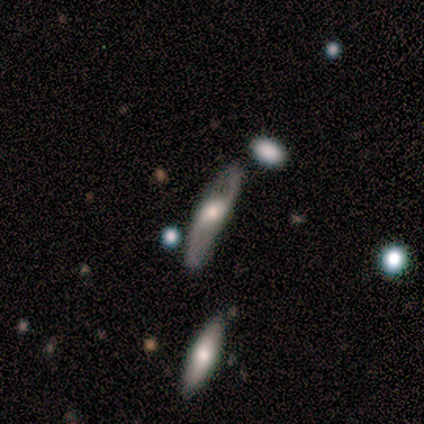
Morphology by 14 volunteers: Volunteers were most divided on "merging": minor disturbance: 42%, none: 25%, major disturbance: 17%, merger: 17%. More confident: spiral arm count — 2 (100%); bar — no (80%); spiral arms — yes (80%); spiral winding — loose (75%); edge-on disk — no (62%); bulge size — large (60%); smooth or featured — featured or disk (57%).